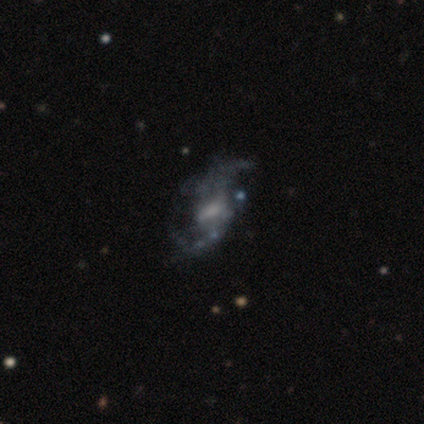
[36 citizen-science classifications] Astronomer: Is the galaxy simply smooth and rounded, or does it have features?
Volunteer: featured or disk — 86%.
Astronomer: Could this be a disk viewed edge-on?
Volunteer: no — 100%.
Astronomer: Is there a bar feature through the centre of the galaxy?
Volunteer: weak — 58%.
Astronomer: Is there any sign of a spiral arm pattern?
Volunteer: yes — 81%.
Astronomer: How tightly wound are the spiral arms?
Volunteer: loose — 84%.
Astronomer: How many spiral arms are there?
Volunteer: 2 — 80%.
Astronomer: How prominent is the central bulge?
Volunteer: small — 48% (runner-up: moderate, 29%).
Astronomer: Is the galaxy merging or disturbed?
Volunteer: none — 58%.